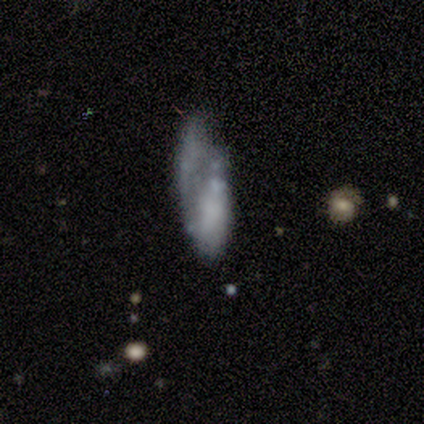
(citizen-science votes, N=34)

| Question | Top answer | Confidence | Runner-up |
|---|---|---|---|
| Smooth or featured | featured or disk | 53% | smooth (38%) |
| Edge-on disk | no | 83% | yes (17%) |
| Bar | no | 100% | — |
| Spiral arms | no | 80% | yes (20%) |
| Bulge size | none | 73% | moderate (20%) |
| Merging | major disturbance | 42% | none (23%) |